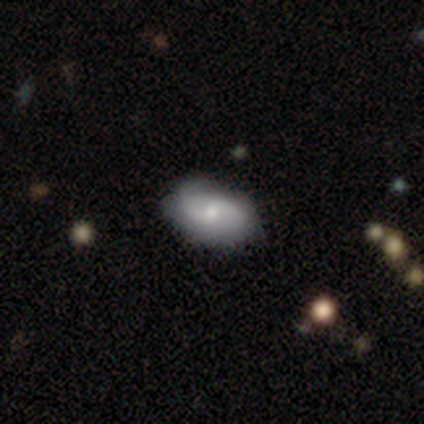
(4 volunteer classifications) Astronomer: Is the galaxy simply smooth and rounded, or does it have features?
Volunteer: featured or disk — 75%.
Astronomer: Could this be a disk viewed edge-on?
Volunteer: no — 100%.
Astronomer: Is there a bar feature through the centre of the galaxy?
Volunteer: no — 67%.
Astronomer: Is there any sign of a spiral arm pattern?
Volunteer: yes — 100%.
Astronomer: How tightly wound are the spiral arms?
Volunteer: tight — 67%.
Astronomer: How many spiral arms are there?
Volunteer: can't tell — 67%.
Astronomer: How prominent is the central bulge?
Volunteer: small — 67%.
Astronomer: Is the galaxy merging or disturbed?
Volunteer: none — 100%.